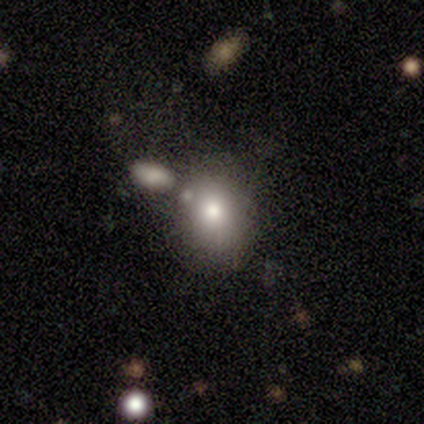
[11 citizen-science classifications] This is clearly a smooth galaxy (82%). How rounded: possibly round (56%). Merging: marginally none (30%, tied with minor disturbance and merger).